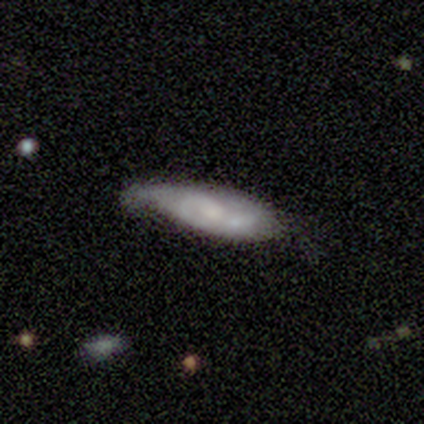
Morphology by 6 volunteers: Smooth or featured? smooth (50%, tied with featured or disk)
How rounded? in between (100%)
Merging? minor disturbance (50%)